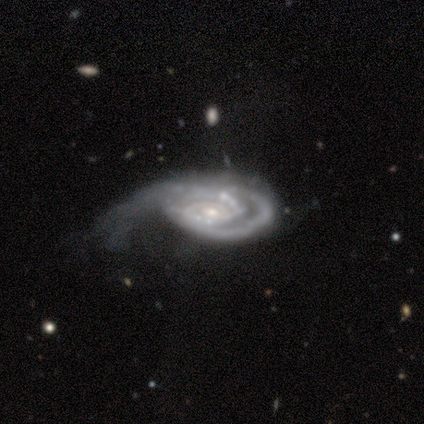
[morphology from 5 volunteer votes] This appears to be a featured or disk galaxy (100%) with no bar (80%), 2 (40%, tied with can't tell) tight (80%) spiral arms (100%) and a small central bulge (80%). Merging: major disturbance (60%).